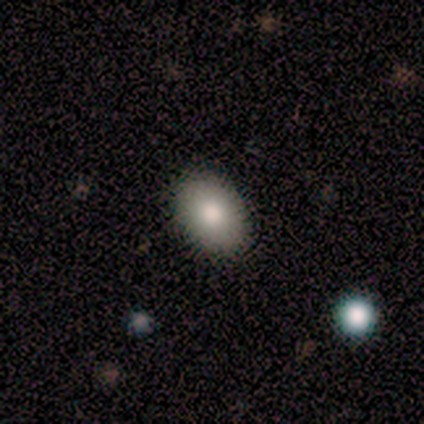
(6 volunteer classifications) Q: Smooth or featured?
A: smooth (83%); runner-up: star or artifact (17%)
Q: How rounded?
A: in between (80%); runner-up: round (20%)
Q: Merging?
A: none (80%); runner-up: minor disturbance (20%)